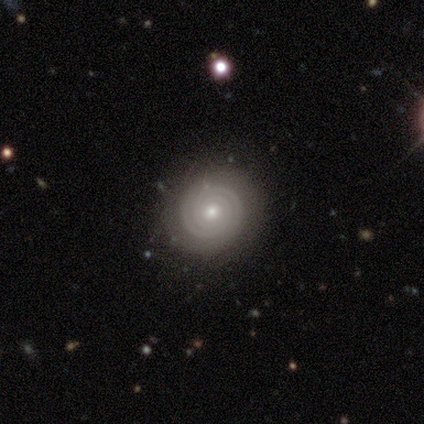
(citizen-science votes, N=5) This appears to be a featured or disk galaxy (100%) with no bar (100%), 2 (60%) tight (100%) spiral arms (100%) and a moderate central bulge (60%). Merging: none (60%).